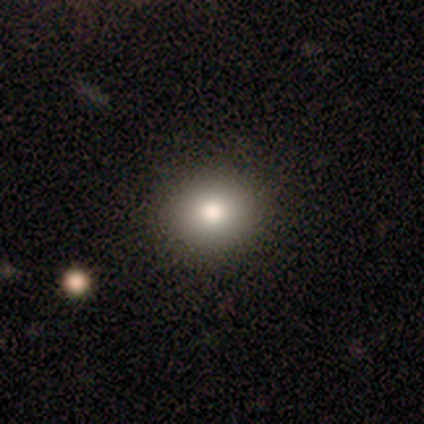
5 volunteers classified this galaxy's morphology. smooth_or_featured: smooth (p=1.00)
how_rounded: round (p=0.80) [alt: in between p=0.20]
merging: none (p=1.00)